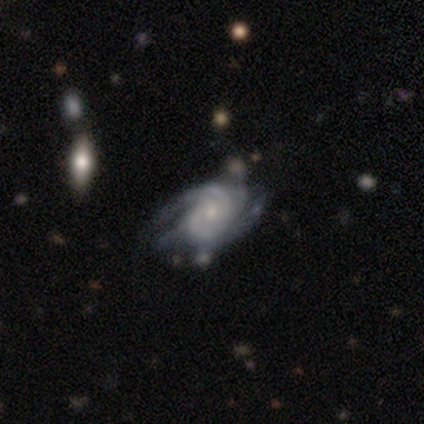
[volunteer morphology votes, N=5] This appears to be a featured or disk galaxy (60%) with no bar (100%), 2 (67%) medium (67%) spiral arms (100%) and a small central bulge (67%). Merging: minor disturbance (50%).